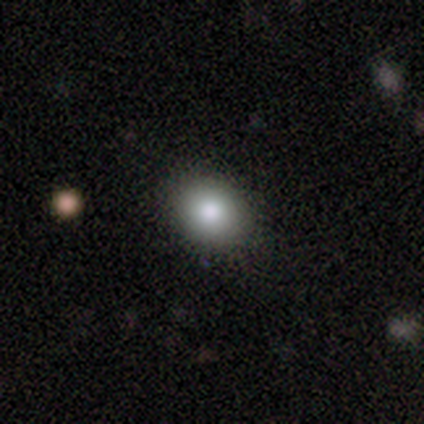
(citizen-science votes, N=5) Smooth or featured? 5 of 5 (100%) said smooth. How rounded? 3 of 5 (60%) said round. Merging? 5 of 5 (100%) said none.